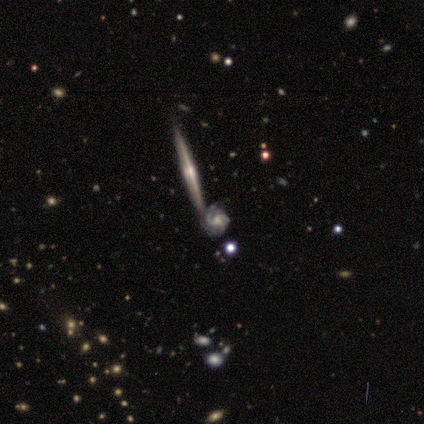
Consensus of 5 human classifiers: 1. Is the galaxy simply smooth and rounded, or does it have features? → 100% featured or disk, 0% smooth, 0% star or artifact.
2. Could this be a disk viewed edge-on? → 60% yes, 40% no.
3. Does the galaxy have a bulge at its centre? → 67% rounded, 33% none, 0% boxy.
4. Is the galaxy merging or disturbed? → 60% none, 40% merger, 0% minor disturbance, 0% major disturbance.